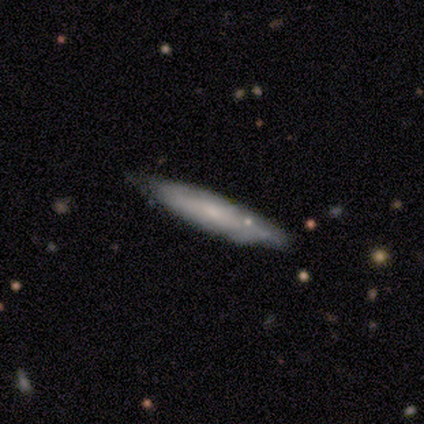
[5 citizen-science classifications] Overall: smooth (60%; featured or disk 40%). How rounded: cigar-shaped (100%). Merging: none (60%; minor disturbance 40%).